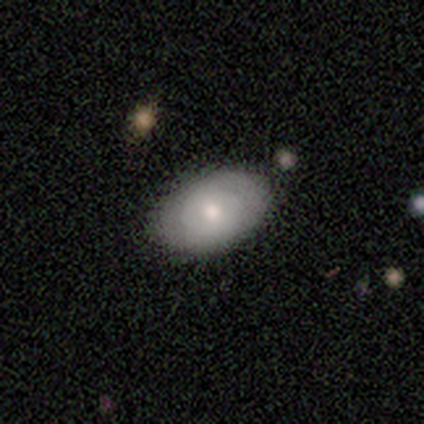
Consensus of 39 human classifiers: Morphology: type=smooth (54%); roundness=in between (95%); merging=none (92%).